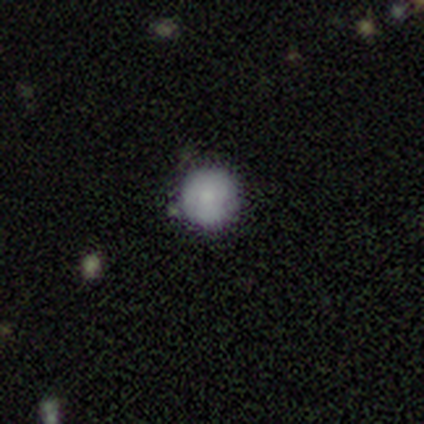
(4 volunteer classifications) Volunteers were most divided on "merging": none: 50%, major disturbance: 25%, merger: 25%, minor disturbance: 0%. More confident: how rounded — round (100%); smooth or featured — smooth (75%).